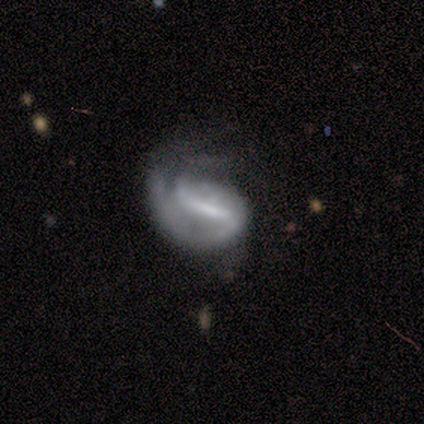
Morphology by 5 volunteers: A featured or disk galaxy (80%) with a strong bar (75%), 2 (75%) tight (50%, tied with medium) spiral arms (100%) and a small central bulge (75%). Merging: none (40%, tied with major disturbance).